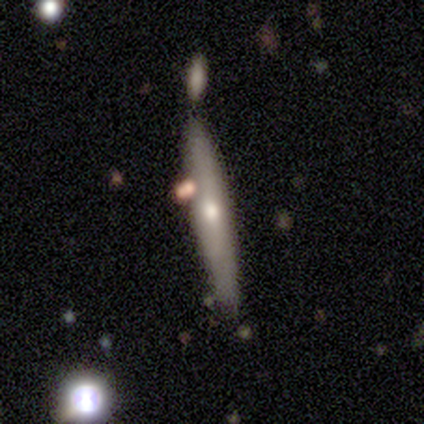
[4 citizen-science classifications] Q: Smooth or featured?
A: smooth (50%); tied with: featured or disk (50%)
Q: How rounded?
A: cigar-shaped (100%)
Q: Merging?
A: none (100%)